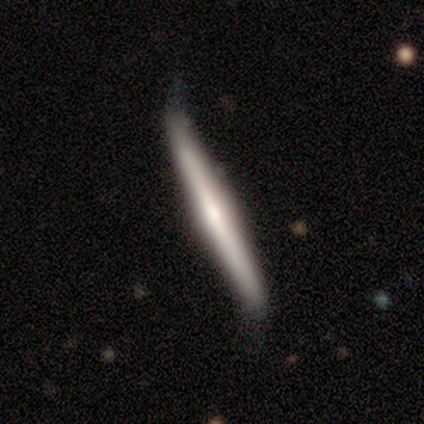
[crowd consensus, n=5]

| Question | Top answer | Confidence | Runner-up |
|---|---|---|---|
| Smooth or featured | featured or disk | 80% | smooth (20%) |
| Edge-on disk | yes | 100% | — |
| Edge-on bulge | rounded | 75% | none (25%) |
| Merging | none | 60% | minor disturbance (40%) |